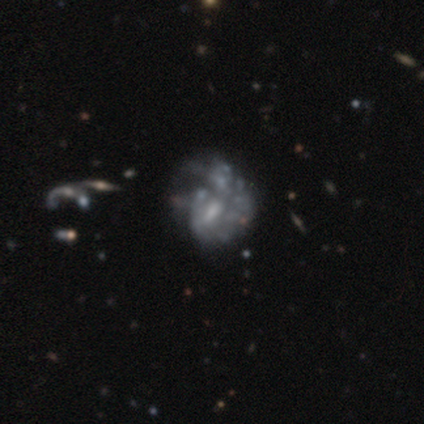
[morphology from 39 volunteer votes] This is clearly a featured or disk galaxy (85%). It is clearly not viewed edge-on (100%). Bar: likely no (61%). Spiral arm pattern: clearly no (82%). Central bulge: possibly none (45%). Merging: marginally major disturbance (39%).